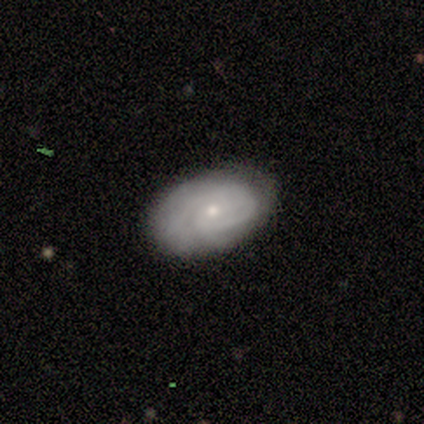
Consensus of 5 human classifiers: Smooth or featured? 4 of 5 (80%) said featured or disk. Edge-on disk? 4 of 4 (100%) said no. Bar? 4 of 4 (100%) said no. Spiral arms? 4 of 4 (100%) said yes. Spiral winding? 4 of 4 (100%) said tight. Spiral arm count? 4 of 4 (100%) said can't tell. Bulge size? 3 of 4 (75%) said small. Merging? 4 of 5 (80%) said none.